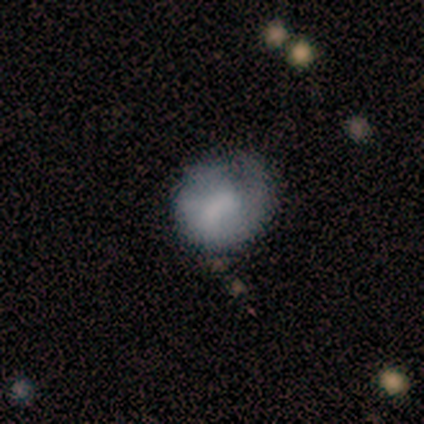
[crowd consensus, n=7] This appears to be a featured or disk galaxy (57%) with a weak bar (75%), no spiral arms (75%) and no central bulge (50%). Merging: none (43%).